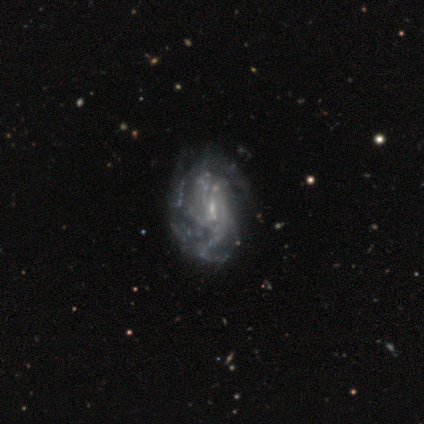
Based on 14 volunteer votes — smooth-or-featured: featured or disk: 100% | smooth: 0% | star or artifact: 0%
  disk-edge-on: no: 93% | yes: 7%
    bar: no: 54% | weak: 46% | strong: 0%
    has-spiral-arms: yes: 85% | no: 15%
      spiral-winding: medium: 64% | tight: 27% | loose: 9%
      spiral-arm-count: can't tell: 55% | 4: 27% | 3: 18% | 1: 0% | 2: 0% | more than 4: 0%
    bulge-size: small: 85% | none: 15% | dominant: 0% | large: 0% | moderate: 0%
  merging: none: 64% | minor disturbance: 21% | major disturbance: 14% | merger: 0%